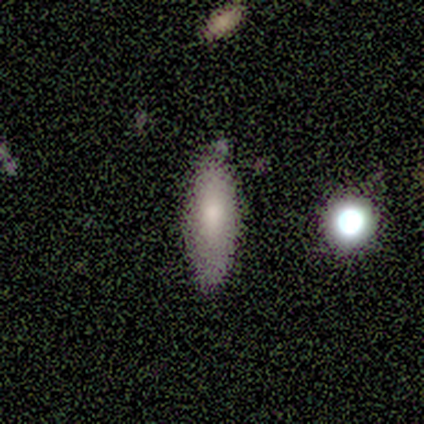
smooth 83%, featured or disk 17%, star or artifact 0%. Down the decision tree: how rounded — cigar-shaped (60%); merging — none (50%).